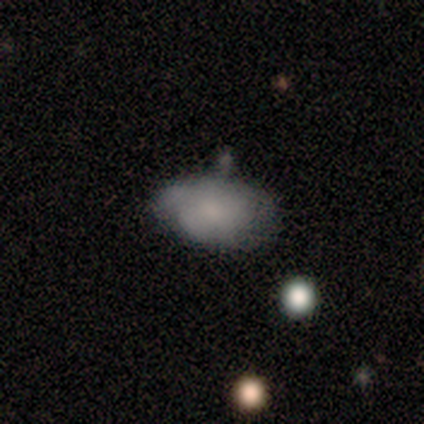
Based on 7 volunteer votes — Smooth or featured?
  - smooth: 57% *
  - featured or disk: 43%
  - star or artifact: 0%
How rounded?
  - round: 50% * (tied)
  - in between: 50% * (tied)
  - cigar-shaped: 0%
Merging?
  - none: 57% *
  - minor disturbance: 29%
  - merger: 14%
  - major disturbance: 0%